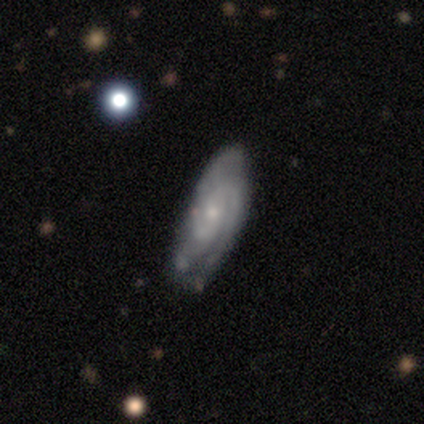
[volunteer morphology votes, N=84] Q: Smooth or featured?
A: featured or disk (76%); runner-up: smooth (12%)
Q: Edge-on disk?
A: no (91%); runner-up: yes (9%)
Q: Bar?
A: no (67%); runner-up: weak (31%)
Q: Spiral arms?
A: yes (93%); runner-up: no (7%)
Q: Spiral winding?
A: tight (56%); runner-up: medium (39%)
Q: Spiral arm count?
A: 2 (44%); runner-up: 3 (26%)
Q: Bulge size?
A: small (67%); runner-up: moderate (19%)
Q: Merging?
A: none (62%); runner-up: minor disturbance (27%)